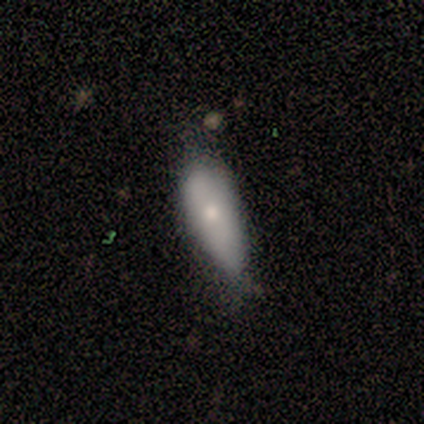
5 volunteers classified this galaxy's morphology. Smooth or featured: smooth — 100%
How rounded: in between — 80% (cigar-shaped — 20%)
Merging: minor disturbance — 80% (none — 20%)